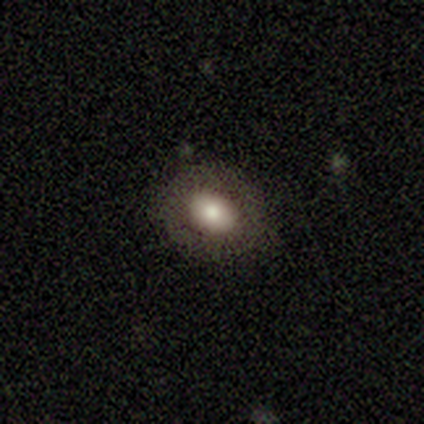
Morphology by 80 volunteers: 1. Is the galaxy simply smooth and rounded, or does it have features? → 76% smooth, 15% featured or disk, 9% star or artifact.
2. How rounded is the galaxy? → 61% in between, 39% round, 0% cigar-shaped.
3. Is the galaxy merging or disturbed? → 41% none, 8% minor disturbance, 1% merger, 0% major disturbance.